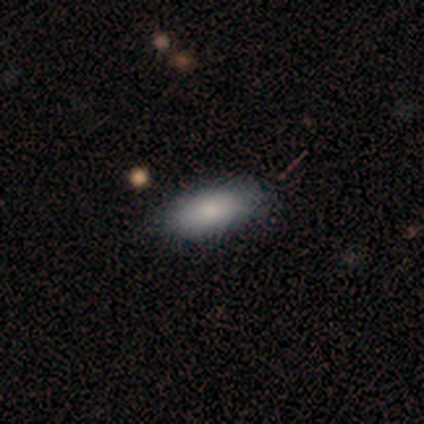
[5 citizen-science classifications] Morphology: type=smooth (80%); roundness=in between (100%); merging=none (100%).